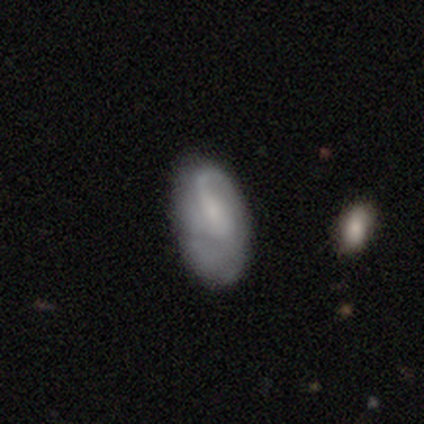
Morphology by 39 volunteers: Smooth or featured? 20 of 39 (51%) said featured or disk. Edge-on disk? 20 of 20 (100%) said no. Bar? 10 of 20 (50%) said no. Spiral arms? 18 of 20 (90%) said yes. Spiral winding? 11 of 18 (61%) said loose. Spiral arm count? 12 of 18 (67%) said 1. Bulge size? 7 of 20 (35%, tied with small) said moderate. Merging? 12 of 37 (32%) said none.